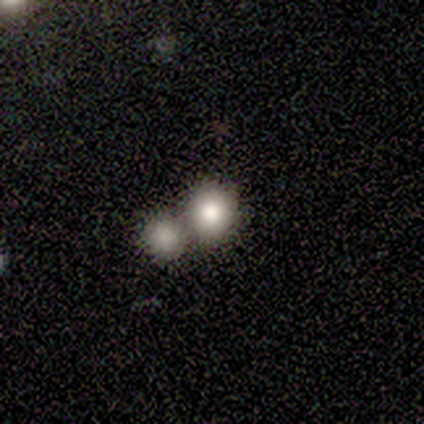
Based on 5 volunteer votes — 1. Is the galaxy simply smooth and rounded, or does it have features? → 80% smooth, 20% featured or disk, 0% star or artifact.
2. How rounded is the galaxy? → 75% round, 25% in between, 0% cigar-shaped.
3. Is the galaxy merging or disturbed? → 60% merger, 40% none, 0% minor disturbance, 0% major disturbance.